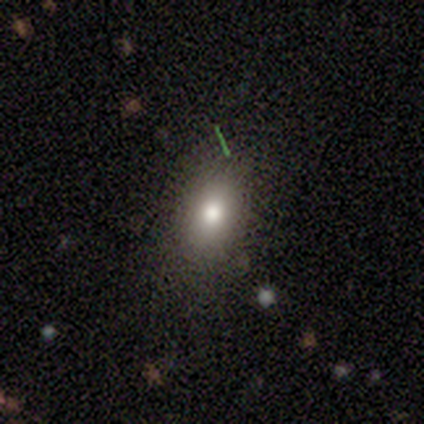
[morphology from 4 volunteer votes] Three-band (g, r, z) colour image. It shows a smooth galaxy with no disk features (50%, tied with star or artifact) that is in between round and cigar-shaped (100%). Merging: none (50%, tied with major disturbance).